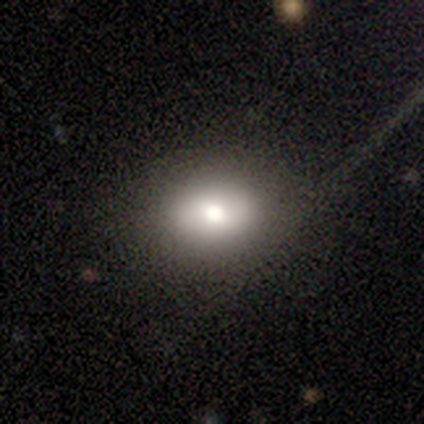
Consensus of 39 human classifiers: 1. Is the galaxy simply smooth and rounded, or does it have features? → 79% smooth, 18% featured or disk, 3% star or artifact.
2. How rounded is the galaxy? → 68% in between, 32% round, 0% cigar-shaped.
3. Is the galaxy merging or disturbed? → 89% none, 5% minor disturbance, 3% major disturbance, 3% merger.